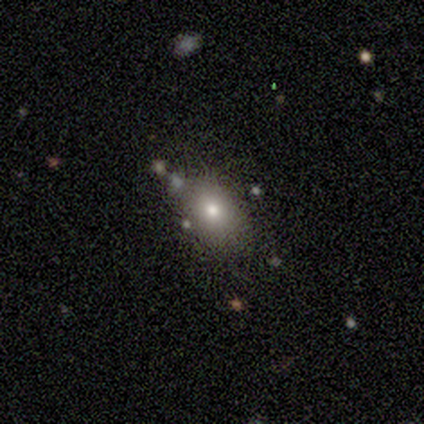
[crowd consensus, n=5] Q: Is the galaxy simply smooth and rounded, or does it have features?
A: smooth — 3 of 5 (60%).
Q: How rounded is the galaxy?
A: round — 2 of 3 (67%).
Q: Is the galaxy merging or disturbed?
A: none — 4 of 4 (100%).